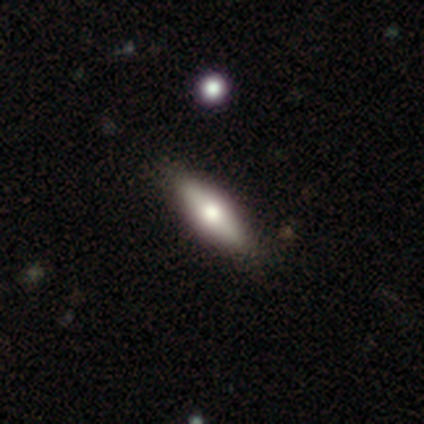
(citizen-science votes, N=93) Smooth or featured: smooth — 60% (featured or disk — 37%)
How rounded: cigar-shaped — 54% (in between — 45%)
Merging: none — 88% (minor disturbance — 11%)